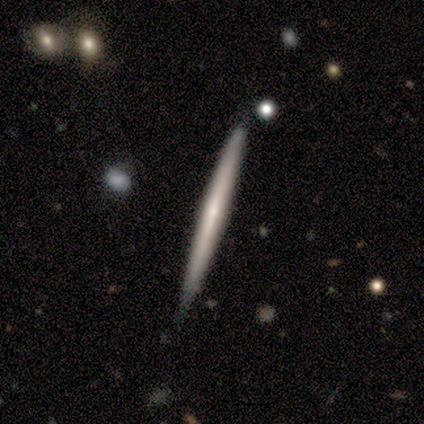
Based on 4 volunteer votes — Smooth or featured? smooth (50%, tied with featured or disk)
How rounded? cigar-shaped (100%)
Merging? none (75%)